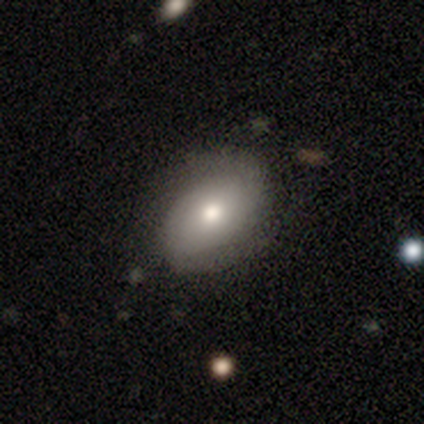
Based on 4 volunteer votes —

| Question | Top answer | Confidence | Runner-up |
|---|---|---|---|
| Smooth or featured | smooth | 50% | featured or disk (25%) |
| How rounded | round | 50% | tied: in between (50%) |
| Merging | none | 67% | major disturbance (33%) |